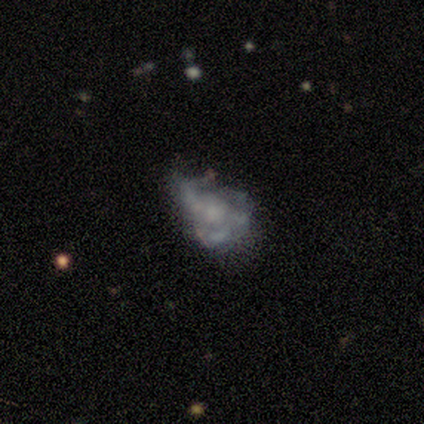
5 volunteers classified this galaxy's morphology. Volunteers were most divided on "merging" (2-way tie): none: 50%, major disturbance: 50%, minor disturbance: 0%, merger: 0%. More confident: edge-on disk — no (100%); bar — no (100%); smooth or featured — featured or disk (80%); spiral arms — no (75%); bulge size — none (50%).